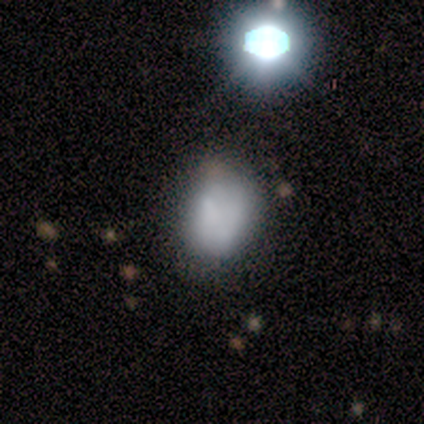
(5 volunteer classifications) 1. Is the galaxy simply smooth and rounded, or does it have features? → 40% smooth (tied), 40% star or artifact (tied), 20% featured or disk.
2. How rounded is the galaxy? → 100% in between, 0% round, 0% cigar-shaped.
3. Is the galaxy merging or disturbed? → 67% minor disturbance, 33% major disturbance, 0% none, 0% merger.